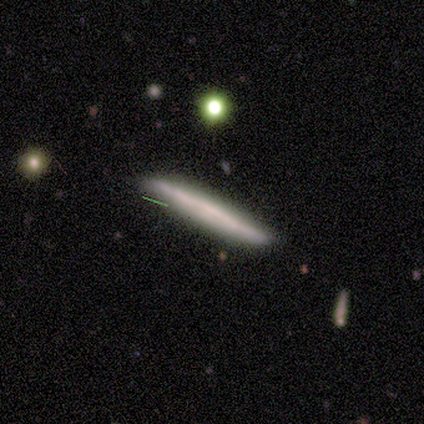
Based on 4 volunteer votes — smooth_or_featured: smooth (p=0.75) [alt: star or artifact p=0.25]
how_rounded: cigar-shaped (p=1.00)
merging: none (p=0.67) [alt: minor disturbance p=0.33]